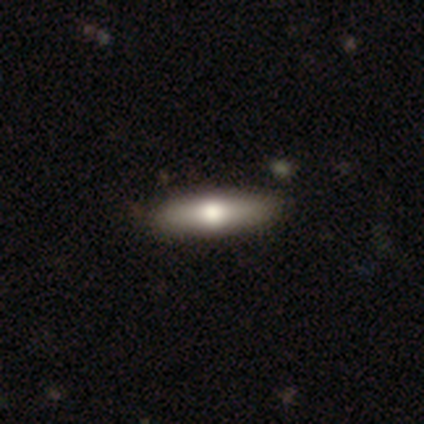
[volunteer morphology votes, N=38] Smooth or featured: smooth — 55% (featured or disk — 42%)
How rounded: cigar-shaped — 76% (in between — 24%)
Merging: none — 92% (minor disturbance — 5%)